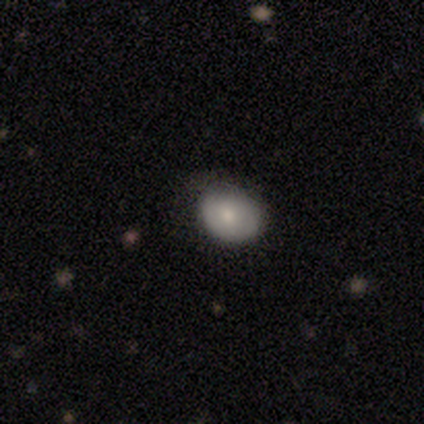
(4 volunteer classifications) This is clearly a smooth galaxy (100%). How rounded: likely in between (75%). Merging: possibly none (50%, tied with minor disturbance).